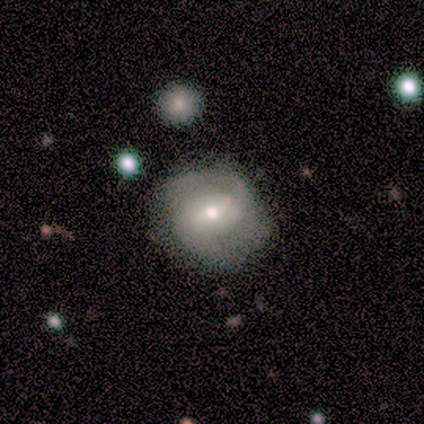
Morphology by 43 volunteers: type=featured or disk (74%); edge-on=no (100%); bar=no (50%); spiral arms=yes (88%); winding=tight (43%, tied with medium); arm count=2 (79%); bulge=moderate (56%); merging=none (68%).